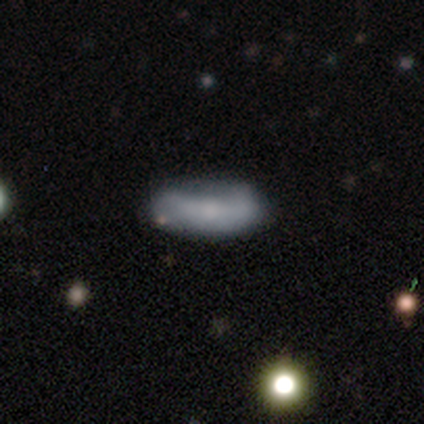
A smooth galaxy with no disk features (60%) that is in between round and cigar-shaped (67%). Merging: none (60%).